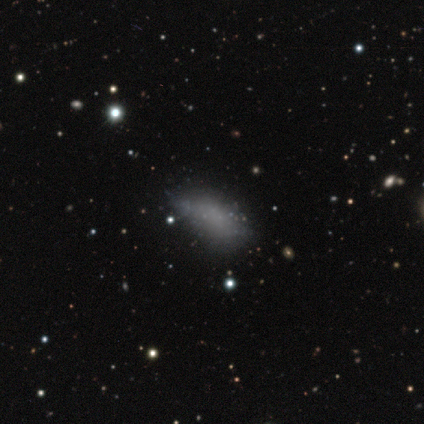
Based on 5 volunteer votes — smooth_or_featured: smooth (p=0.80) [alt: star or artifact p=0.20]
how_rounded: in between (p=1.00)
merging: none (p=0.50) [tied with: minor disturbance p=0.50]